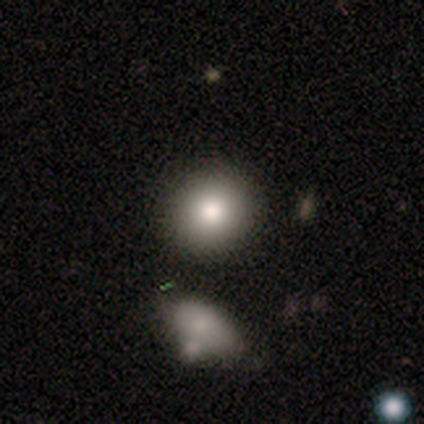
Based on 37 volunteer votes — A smooth galaxy with no disk features (81%) that is round (90%).

Vote fractions:
- Smooth or featured? smooth: 81% / featured or disk: 11% / star or artifact: 8%
- How rounded? round: 90% / in between: 10% / cigar-shaped: 0%
- Merging? none: 85% / major disturbance: 6% / merger: 6% / minor disturbance: 3%